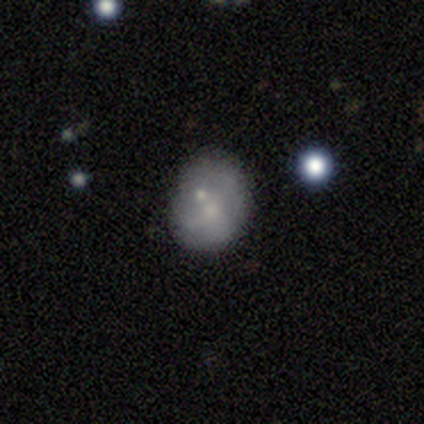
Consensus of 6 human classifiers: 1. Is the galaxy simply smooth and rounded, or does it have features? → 50% smooth (tied), 50% featured or disk (tied), 0% star or artifact.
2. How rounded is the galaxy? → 67% round, 33% in between, 0% cigar-shaped.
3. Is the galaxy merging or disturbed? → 67% none, 17% minor disturbance, 17% major disturbance, 0% merger.